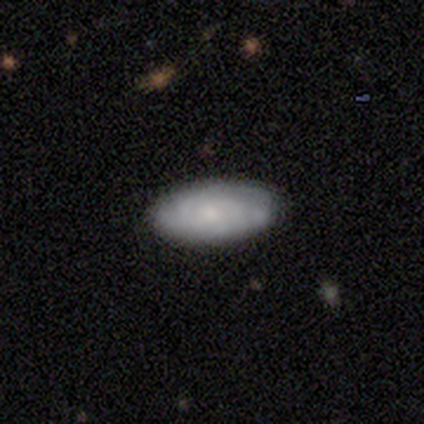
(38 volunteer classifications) smooth_or_featured: smooth (p=0.55) [alt: featured or disk p=0.42]
how_rounded: in between (p=0.95) [alt: cigar-shaped p=0.05]
merging: none (p=0.73) [alt: minor disturbance p=0.24]